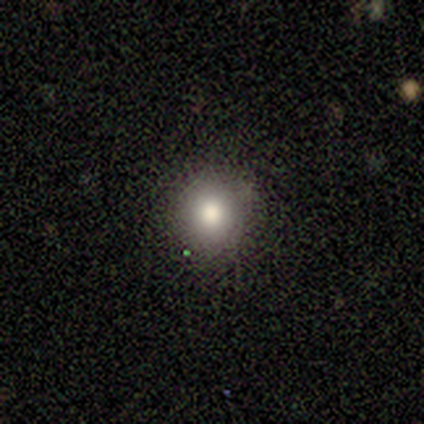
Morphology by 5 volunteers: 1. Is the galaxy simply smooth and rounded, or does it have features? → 80% smooth, 20% star or artifact, 0% featured or disk.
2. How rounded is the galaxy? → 100% round, 0% in between, 0% cigar-shaped.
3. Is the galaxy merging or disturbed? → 100% none, 0% minor disturbance, 0% major disturbance, 0% merger.